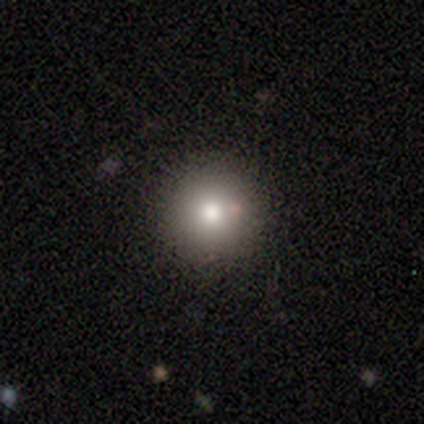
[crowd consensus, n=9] Volunteers were most divided on "smooth or featured": smooth: 78%, star or artifact: 22%, featured or disk: 0%. More confident: how rounded — round (100%); merging — none (86%).